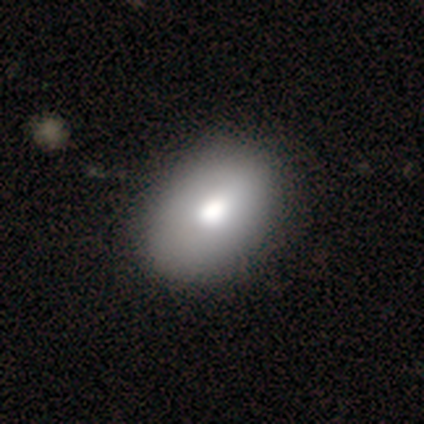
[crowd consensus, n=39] smooth-or-featured: smooth: 67% | featured or disk: 26% | star or artifact: 8%
  how-rounded: in between: 73% | round: 27% | cigar-shaped: 0%
  merging: none: 64% | minor disturbance: 3% | major disturbance: 0% | merger: 0%